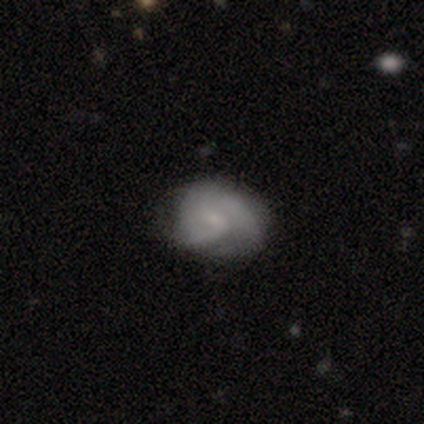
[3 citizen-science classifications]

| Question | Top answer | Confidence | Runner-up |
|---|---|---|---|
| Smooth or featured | smooth | 67% | featured or disk (33%) |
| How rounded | in between | 100% | — |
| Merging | none | 33% | tied: minor disturbance (33%), major disturbance (33%) |